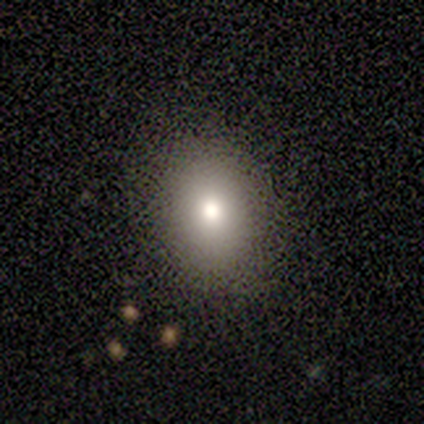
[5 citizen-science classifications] Smooth or featured: smooth — 100%
How rounded: in between — 60% (round — 40%)
Merging: none — 60% (minor disturbance — 40%)